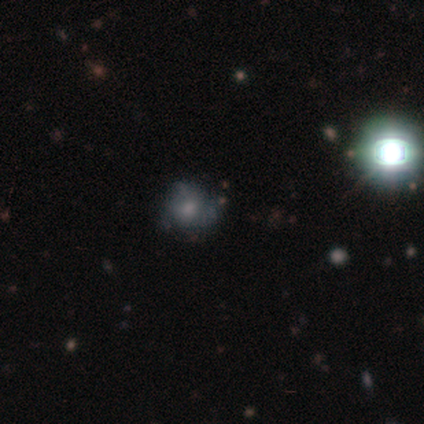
featured or disk 40% (tied), star or artifact 40% (tied), smooth 20%. Down the decision tree: edge-on disk — no (100%); bar — no (100%); spiral arms — yes (50%, tied with no); spiral arm count — 3 (100%); spiral winding — tight (100%); bulge size — moderate (100%); merging — none (67%).